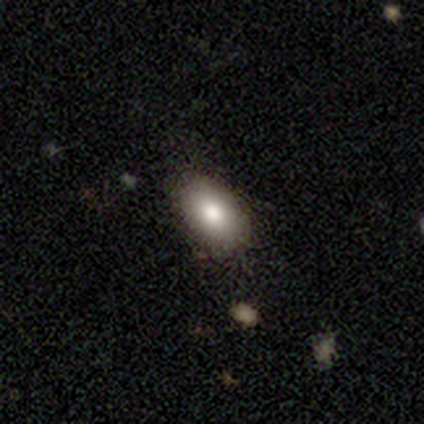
Q: Smooth or featured?
A: smooth (80%); runner-up: featured or disk (14%)
Q: How rounded?
A: in between (88%); runner-up: round (12%)
Q: Merging?
A: none (60%); runner-up: minor disturbance (7%)